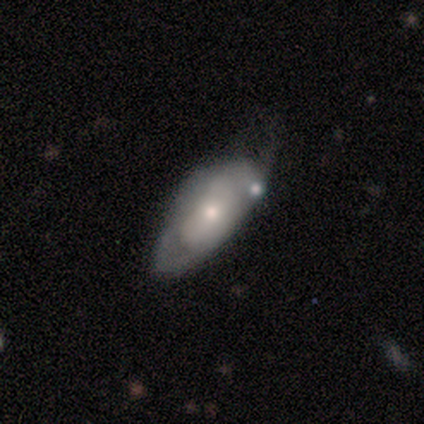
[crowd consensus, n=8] A smooth galaxy with no disk features (62%) that is in between round and cigar-shaped (100%). Merging: major disturbance (50%).